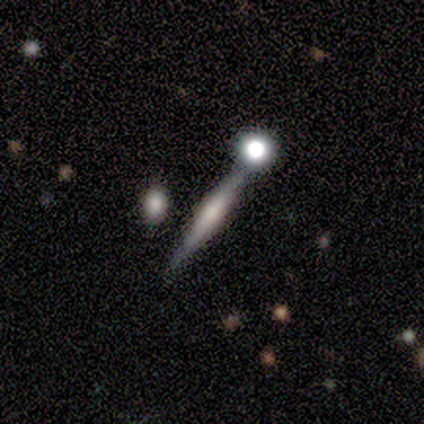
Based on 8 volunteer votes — Smooth or featured: featured or disk — 62% (smooth — 25%)
Edge-on disk: yes — 100%
Edge-on bulge: boxy — 40% (tied with rounded — 40%)
Merging: none — 86% (merger — 14%)